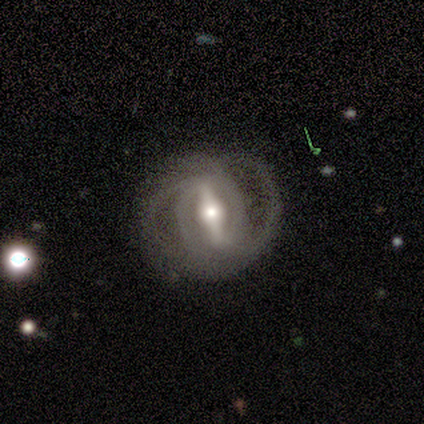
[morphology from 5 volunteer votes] Overall: featured or disk (80%). Edge-on disk: no (100%). Bar: strong (100%). Spiral arms: yes (50%, tied with no). Spiral arm count: 2 (50%, tied with 3). Spiral winding: medium (100%). Bulge size: moderate (50%; large 25%). Merging: none (100%).